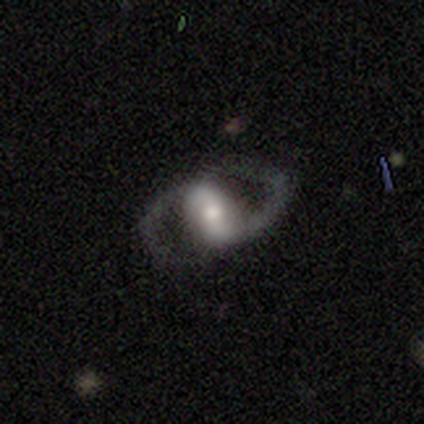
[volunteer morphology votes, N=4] smooth-or-featured: smooth: 50% (tied) | featured or disk: 50% (tied) | star or artifact: 0%
  how-rounded: in between: 100% | round: 0% | cigar-shaped: 0%
  merging: none: 75% | merger: 25% | minor disturbance: 0% | major disturbance: 0%